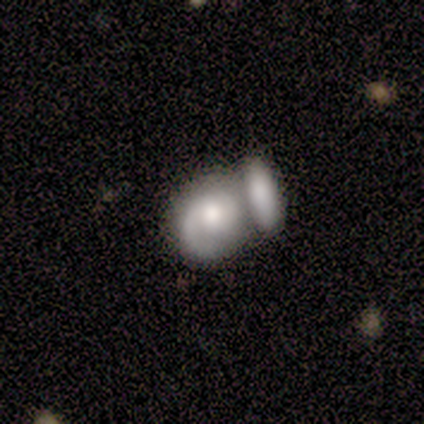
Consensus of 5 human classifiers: Smooth or featured? smooth (60%)
How rounded? round (100%)
Merging? merger (75%)